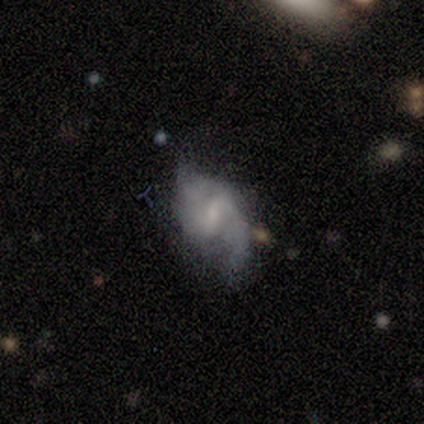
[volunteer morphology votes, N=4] smooth_or_featured: featured or disk (p=0.75) [alt: star or artifact p=0.25]
disk_edge_on: no (p=1.00)
bar: weak (p=1.00)
has_spiral_arms: yes (p=1.00)
spiral_winding: loose (p=0.67) [alt: medium p=0.33]
spiral_arm_count: 1 (p=0.33) [tied with: 3 p=0.33, can't tell p=0.33]
bulge_size: small (p=0.67) [alt: none p=0.33]
merging: minor disturbance (p=1.00)